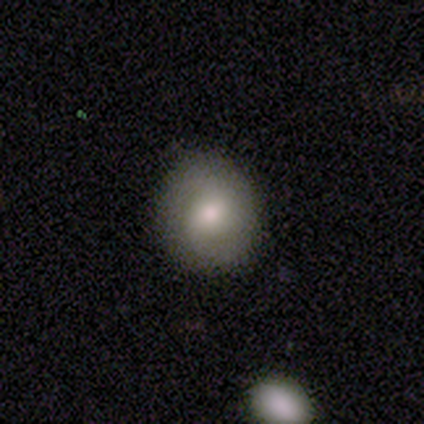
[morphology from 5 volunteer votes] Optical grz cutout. It shows a smooth galaxy with no disk features (60%) that is round (100%). Merging: none (80%).